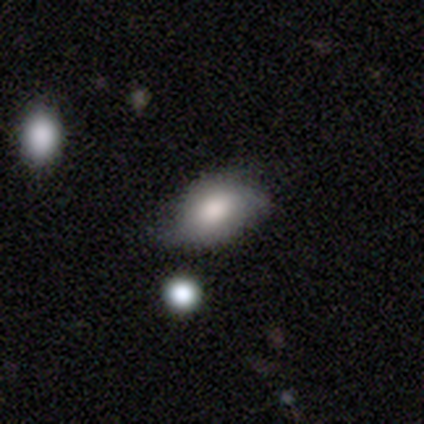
smooth 80%, featured or disk 20%, star or artifact 0%. Down the decision tree: how rounded — in between (75%); merging — none (80%).